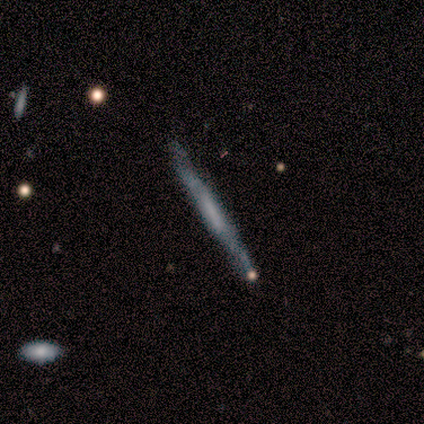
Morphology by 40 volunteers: Smooth or featured? featured or disk (72%)
Edge-on disk? yes (93%)
Edge-on bulge? none (52%)
Merging? none (68%)